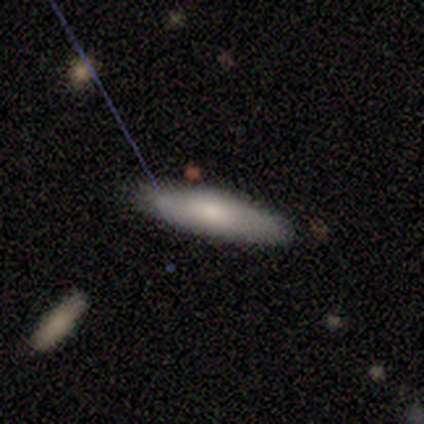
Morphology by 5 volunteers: This is likely a smooth galaxy (60%). How rounded: likely in between (67%). Merging: clearly none (100%).